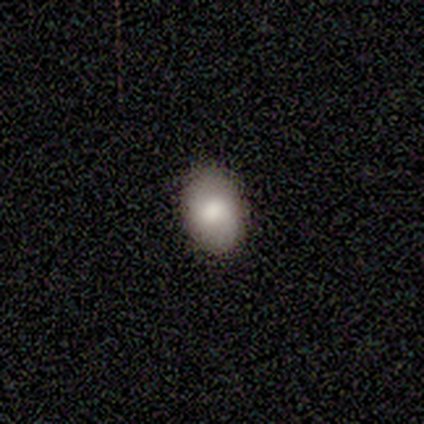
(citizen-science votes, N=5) A smooth galaxy with no disk features (80%) that is round (50%, tied with in between). Merging: none (60%).